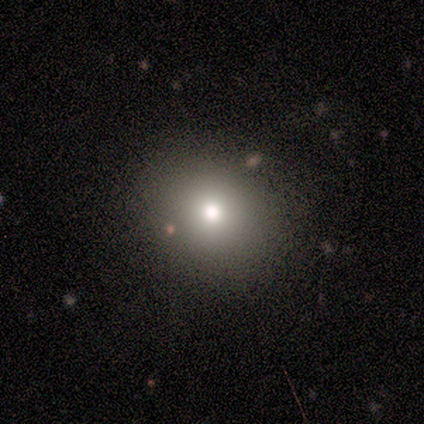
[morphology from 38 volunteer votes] This appears to be a smooth galaxy with no disk features (66%) that is round (92%). Merging: none (88%).